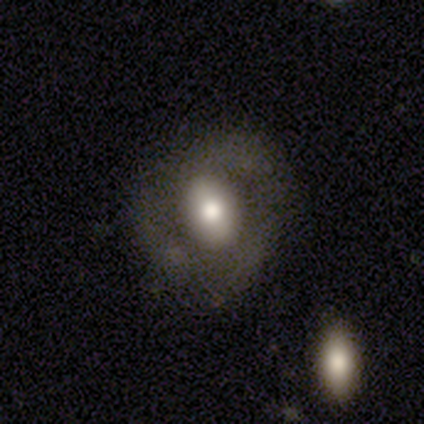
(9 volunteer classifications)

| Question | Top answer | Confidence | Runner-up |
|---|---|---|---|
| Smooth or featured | featured or disk | 67% | smooth (33%) |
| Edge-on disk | no | 100% | — |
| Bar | no | 50% | strong (33%) |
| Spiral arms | yes | 67% | no (33%) |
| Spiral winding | tight | 50% | tied: loose (50%) |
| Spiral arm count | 3 | 75% | 1 (25%) |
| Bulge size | moderate | 83% | large (17%) |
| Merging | none | 67% | minor disturbance (22%) |